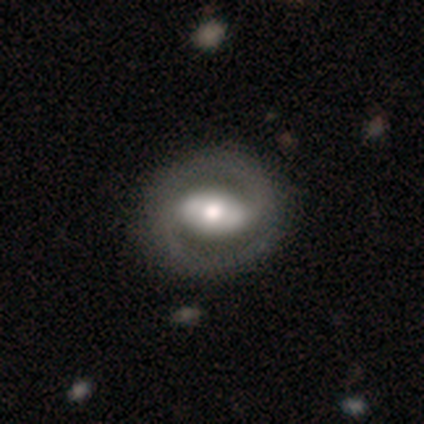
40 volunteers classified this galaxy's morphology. Q: Smooth or featured?
A: featured or disk (88%); runner-up: smooth (8%)
Q: Edge-on disk?
A: no (91%); runner-up: yes (9%)
Q: Bar?
A: strong (62%); runner-up: weak (22%)
Q: Spiral arms?
A: yes (72%); runner-up: no (28%)
Q: Spiral winding?
A: tight (39%); runner-up: medium (30%)
Q: Spiral arm count?
A: 2 (96%); runner-up: can't tell (4%)
Q: Bulge size?
A: moderate (59%); runner-up: large (31%)
Q: Merging?
A: none (66%); runner-up: major disturbance (3%)